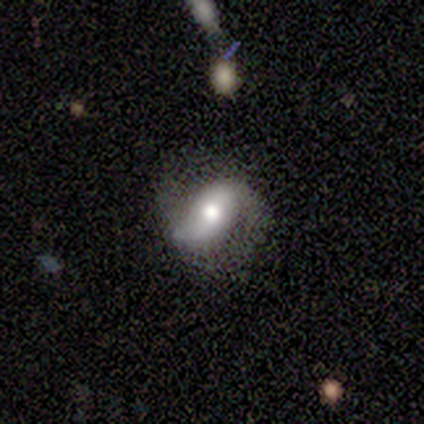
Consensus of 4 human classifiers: This appears to be a featured or disk galaxy (75%) with a weak bar (50%, tied with no), 2 (100%) loose (100%) spiral arms (100%) and a large central bulge (50%, tied with moderate). Merging: none (67%).